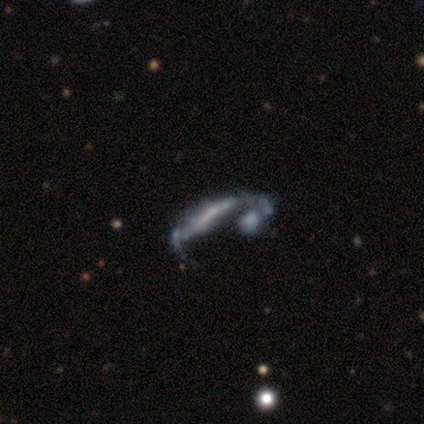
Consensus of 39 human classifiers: Q: Smooth or featured?
A: featured or disk (74%); runner-up: smooth (18%)
Q: Edge-on disk?
A: no (66%); runner-up: yes (34%)
Q: Bar?
A: no (63%); runner-up: strong (21%)
Q: Spiral arms?
A: no (53%); runner-up: yes (47%)
Q: Bulge size?
A: none (68%); runner-up: moderate (16%)
Q: Merging?
A: merger (42%); runner-up: major disturbance (25%)